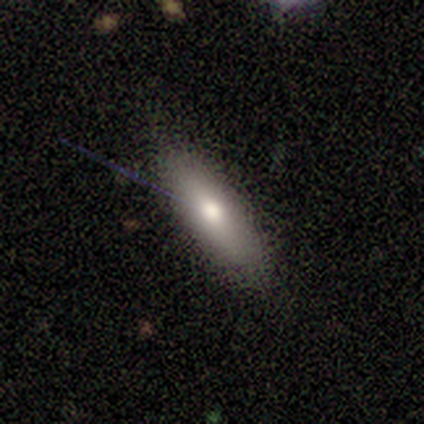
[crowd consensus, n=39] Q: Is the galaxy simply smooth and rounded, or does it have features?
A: smooth — 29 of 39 (74%).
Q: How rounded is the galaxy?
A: in between — 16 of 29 (55%).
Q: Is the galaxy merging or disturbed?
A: none — 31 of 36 (86%).